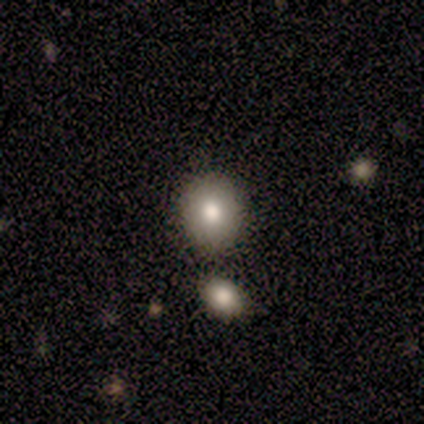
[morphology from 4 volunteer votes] Smooth or featured: smooth — 100%
How rounded: round — 100%
Merging: none — 75% (minor disturbance — 25%)